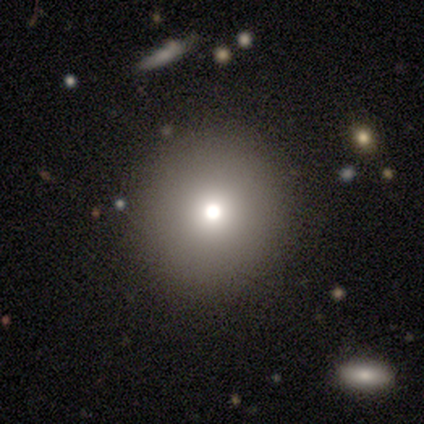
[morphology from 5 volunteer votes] Smooth or featured: smooth — 80% (star or artifact — 20%)
How rounded: round — 100%
Merging: none — 75% (minor disturbance — 25%)